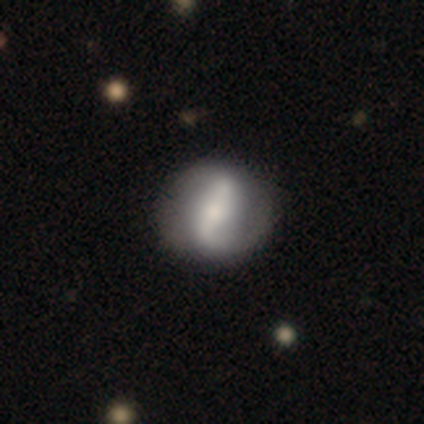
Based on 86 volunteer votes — Smooth or featured: featured or disk — 65% (smooth — 31%)
Edge-on disk: no — 95% (yes — 5%)
Bar: strong — 53% (weak — 32%)
Spiral arms: yes — 83% (no — 17%)
Spiral winding: loose — 61% (medium — 25%)
Spiral arm count: 2 — 84% (1 — 9%)
Bulge size: small — 53% (moderate — 34%)
Merging: none — 80% (minor disturbance — 13%)